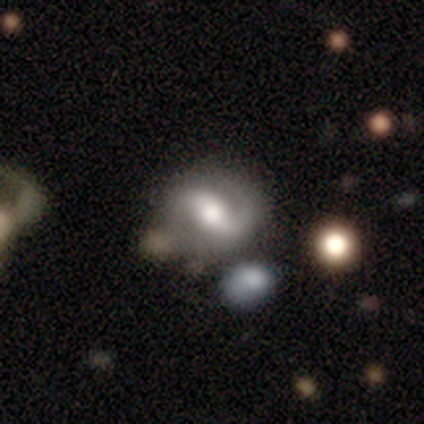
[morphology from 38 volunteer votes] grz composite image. It shows a featured or disk galaxy (74%) with a strong bar (44%), 2 (73%) medium (54%) spiral arms (96%) and a moderate central bulge (59%). Merging: none (63%).